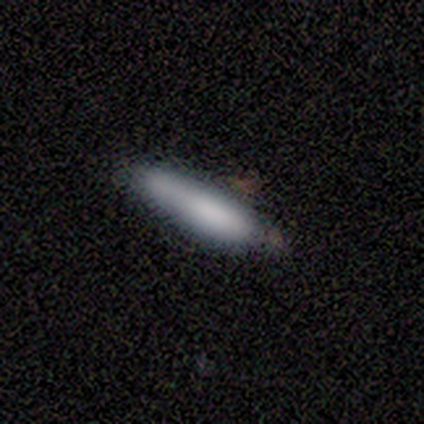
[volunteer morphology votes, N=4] featured or disk 50%, smooth 25%, star or artifact 25%. Down the decision tree: edge-on disk — yes (50%, tied with no); edge-on bulge — none (100%); merging — none (33%, tied with minor disturbance and major disturbance).